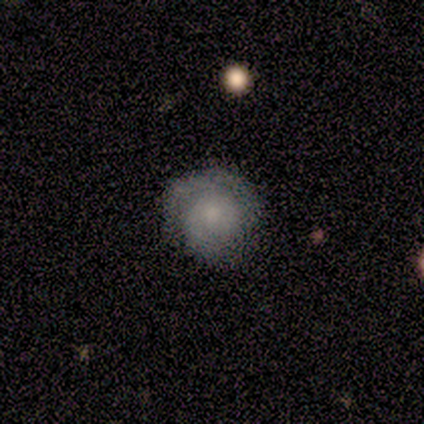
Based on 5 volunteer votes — Volunteers were most divided on "smooth or featured" (2-way tie): smooth: 40%, featured or disk: 40%, star or artifact: 20%. More confident: how rounded — round (100%); merging — none (50%).